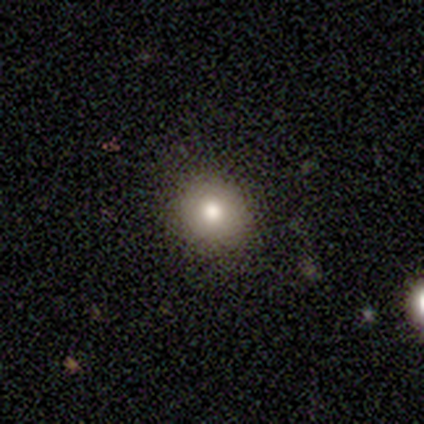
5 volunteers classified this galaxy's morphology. This is likely a smooth galaxy (60%). How rounded: clearly round (100%). Merging: clearly none (100%).